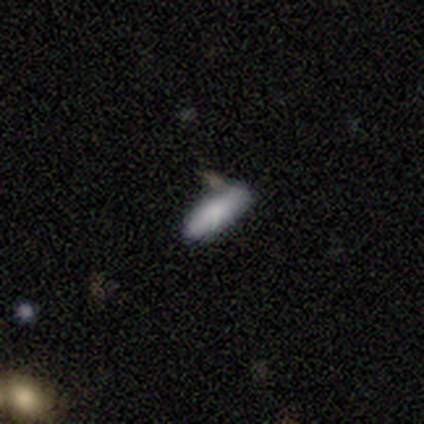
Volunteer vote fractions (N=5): smooth_or_featured: smooth (p=0.80) [alt: star or artifact p=0.20]
how_rounded: in between (p=0.50) [tied with: cigar-shaped p=0.50]
merging: none (p=1.00)